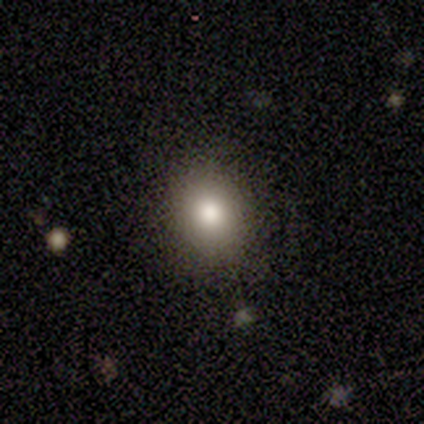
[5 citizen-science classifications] Morphology: type=smooth (80%); roundness=round (75%); merging=none (100%).